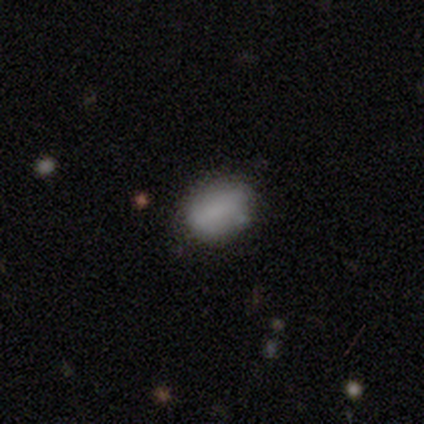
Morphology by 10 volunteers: Smooth or featured? 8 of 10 (80%) said smooth. How rounded? 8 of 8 (100%) said in between. Merging? 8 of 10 (80%) said none.